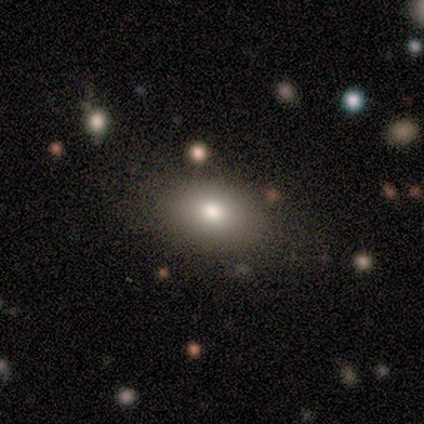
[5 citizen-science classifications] A star or artifact, not a galaxy (60%).